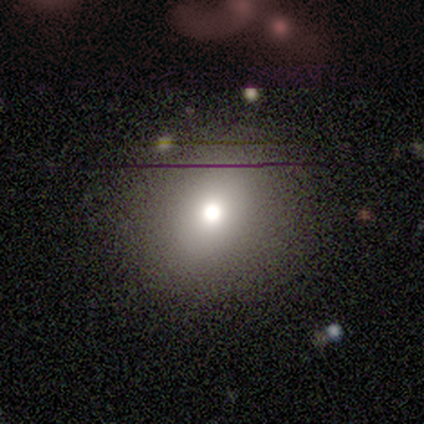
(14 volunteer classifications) Q: Smooth or featured?
A: smooth (71%); runner-up: star or artifact (21%)
Q: How rounded?
A: round (80%); runner-up: in between (20%)
Q: Merging?
A: none (100%)